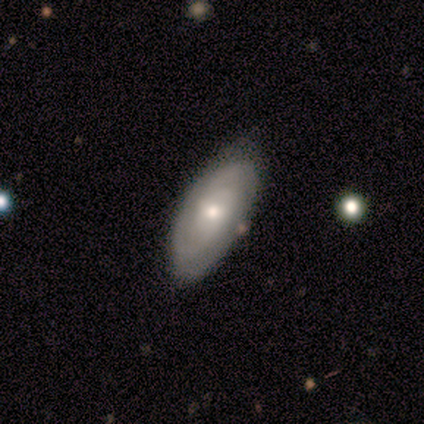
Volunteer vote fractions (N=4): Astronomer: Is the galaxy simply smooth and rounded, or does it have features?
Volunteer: smooth — 50%, tied with featured or disk at 50%.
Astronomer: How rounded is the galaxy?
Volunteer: in between — 100%.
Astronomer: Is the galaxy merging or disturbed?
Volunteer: none — 100%.